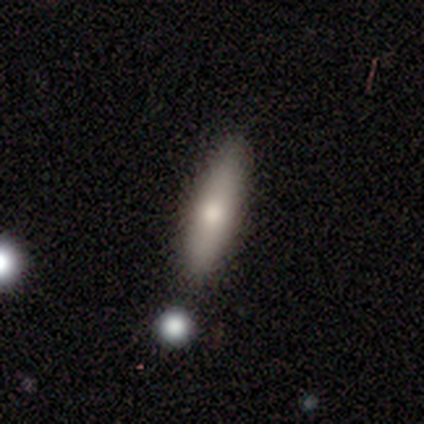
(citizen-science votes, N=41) Smooth or featured?
  - smooth: 71% *
  - featured or disk: 24%
  - star or artifact: 5%
How rounded?
  - cigar-shaped: 79% *
  - in between: 21%
  - round: 0%
Merging?
  - none: 77% *
  - minor disturbance: 18%
  - major disturbance: 3%
  - merger: 3%